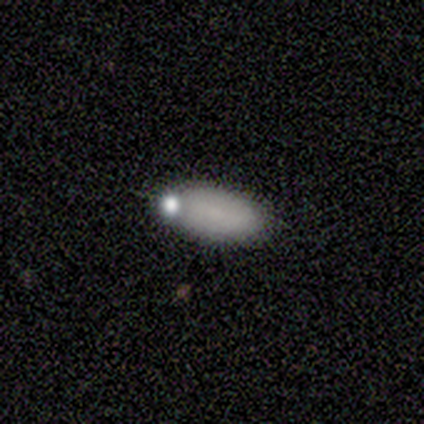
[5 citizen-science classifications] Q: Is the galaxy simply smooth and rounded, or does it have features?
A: smooth — 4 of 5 (80%).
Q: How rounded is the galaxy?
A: in between — 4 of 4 (100%).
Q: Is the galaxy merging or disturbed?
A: none — 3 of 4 (75%).